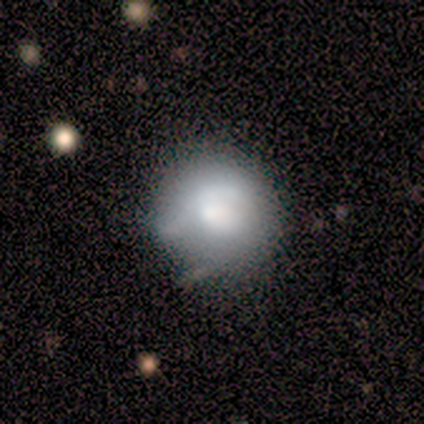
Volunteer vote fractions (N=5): smooth 80%, featured or disk 20%, star or artifact 0%. Down the decision tree: how rounded — round (75%); merging — none (80%).